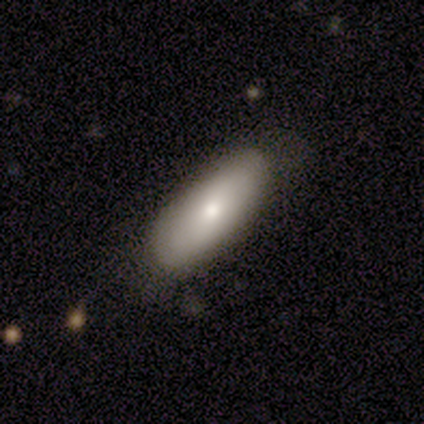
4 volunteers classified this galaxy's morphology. Q: Smooth or featured?
A: smooth (100%)
Q: How rounded?
A: in between (75%); runner-up: cigar-shaped (25%)
Q: Merging?
A: none (100%)